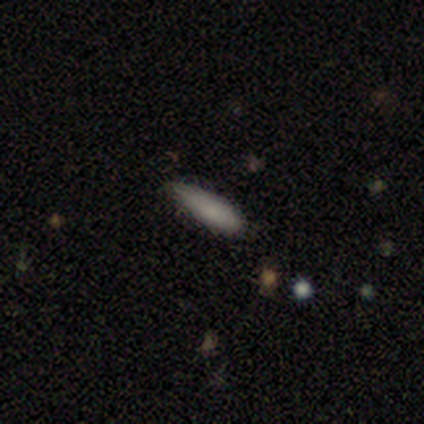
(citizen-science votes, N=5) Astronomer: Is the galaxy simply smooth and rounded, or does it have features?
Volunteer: smooth — 80%.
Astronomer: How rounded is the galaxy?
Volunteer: cigar-shaped — 75%.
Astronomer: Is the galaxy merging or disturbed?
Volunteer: minor disturbance — 80%.